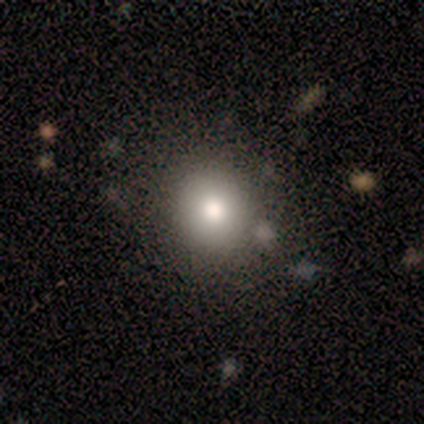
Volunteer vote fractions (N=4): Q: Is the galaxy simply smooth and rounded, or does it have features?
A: smooth — 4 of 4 (100%).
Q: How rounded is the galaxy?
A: round — 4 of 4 (100%).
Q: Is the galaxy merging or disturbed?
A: none — 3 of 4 (75%).